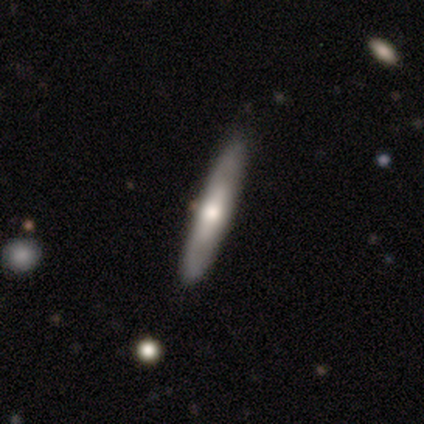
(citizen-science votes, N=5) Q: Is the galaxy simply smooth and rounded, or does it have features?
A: featured or disk — 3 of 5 (60%).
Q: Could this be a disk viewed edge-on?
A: yes — 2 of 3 (67%).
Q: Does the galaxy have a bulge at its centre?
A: rounded — 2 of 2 (100%).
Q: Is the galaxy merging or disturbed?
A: none — 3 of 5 (60%).